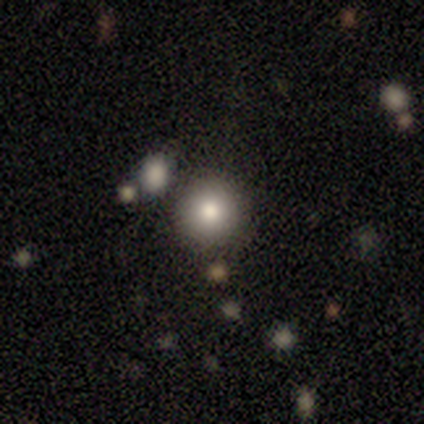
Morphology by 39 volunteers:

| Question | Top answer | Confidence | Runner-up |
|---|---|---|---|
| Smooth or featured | smooth | 79% | featured or disk (13%) |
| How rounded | round | 100% | — |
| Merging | none | 78% | merger (11%) |